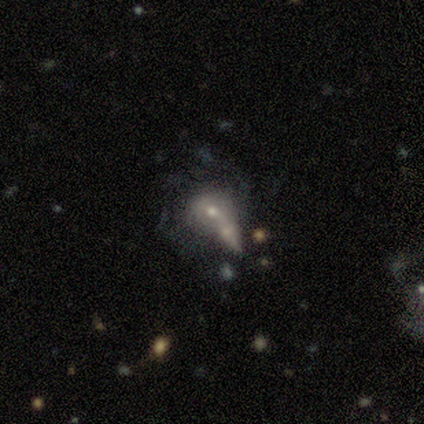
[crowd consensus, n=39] Smooth or featured? featured or disk (56%)
Edge-on disk? no (100%)
Bar? no (64%)
Spiral arms? no (68%)
Bulge size? moderate (68%)
Merging? merger (53%)